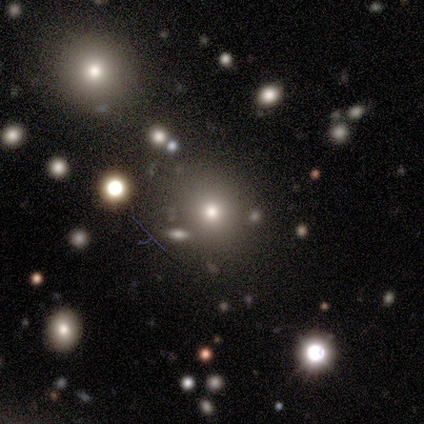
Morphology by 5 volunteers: Smooth or featured? smooth (60%)
How rounded? round (67%)
Merging? none (67%)